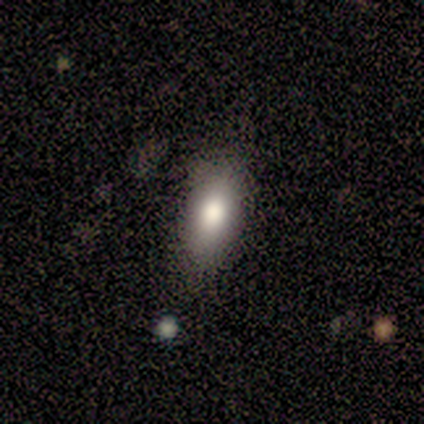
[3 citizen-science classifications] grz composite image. It shows a smooth galaxy with no disk features (100%) that is in between round and cigar-shaped (100%). Merging: minor disturbance (67%).